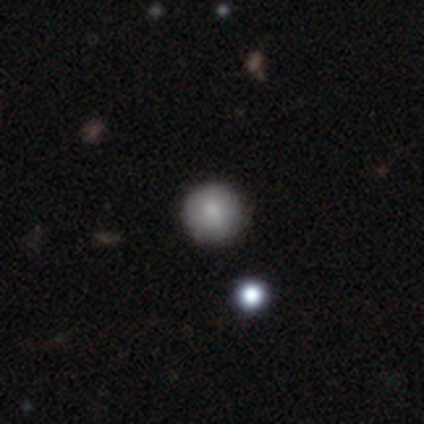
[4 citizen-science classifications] smooth-or-featured: smooth: 75% | star or artifact: 25% | featured or disk: 0%
  how-rounded: round: 100% | in between: 0% | cigar-shaped: 0%
  merging: none: 100% | minor disturbance: 0% | major disturbance: 0% | merger: 0%